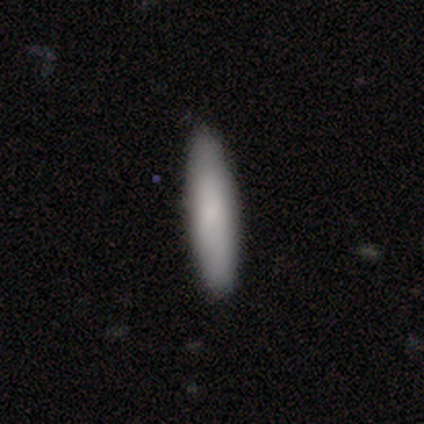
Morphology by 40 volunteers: Smooth or featured?
  - smooth: 80% *
  - featured or disk: 18%
  - star or artifact: 2%
How rounded?
  - cigar-shaped: 78% *
  - in between: 19%
  - round: 3%
Merging?
  - none: 87% *
  - minor disturbance: 8%
  - major disturbance: 3%
  - merger: 3%